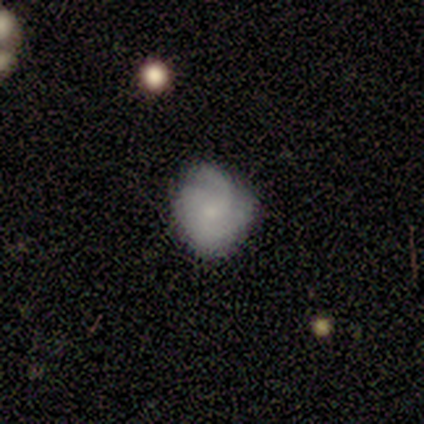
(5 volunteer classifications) Smooth or featured? smooth (40%, tied with featured or disk)
How rounded? round (100%)
Merging? none (100%)